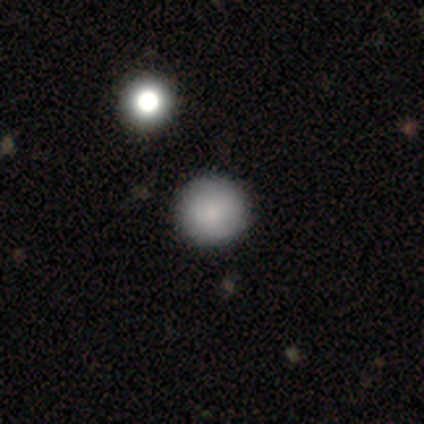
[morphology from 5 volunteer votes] Smooth or featured? smooth (100%)
How rounded? round (100%)
Merging? none (100%)